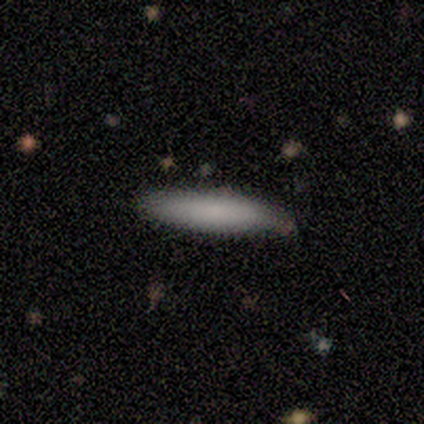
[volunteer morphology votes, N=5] smooth 80%, featured or disk 20%, star or artifact 0%. Down the decision tree: how rounded — cigar-shaped (100%); merging — none (100%).